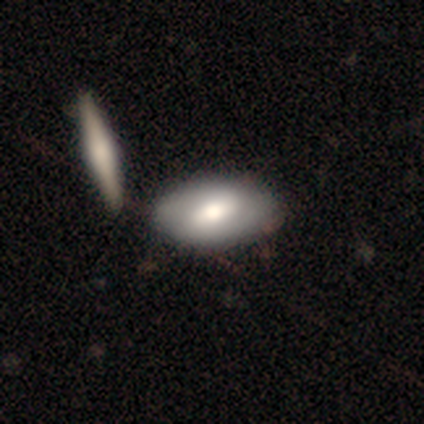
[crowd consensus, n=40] smooth 55%, featured or disk 45%, star or artifact 0%. Down the decision tree: how rounded — in between (86%); merging — none (62%).